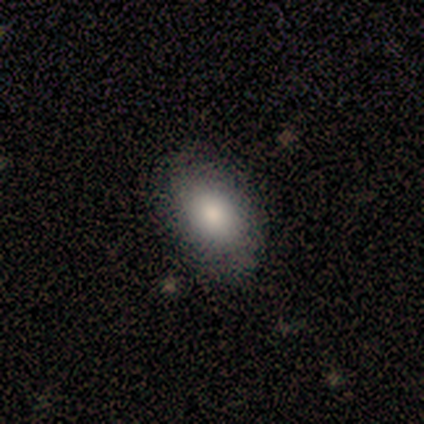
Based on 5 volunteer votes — Volunteers were most divided on "how rounded": in between: 80%, round: 20%, cigar-shaped: 0%. More confident: smooth or featured — smooth (100%); merging — none (80%).